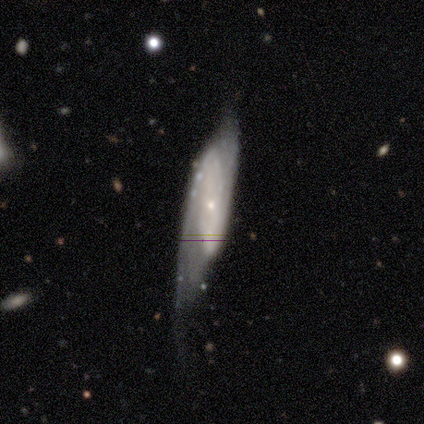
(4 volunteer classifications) Smooth or featured: featured or disk — 100%
Edge-on disk: no — 100%
Bar: no — 75% (weak — 25%)
Spiral arms: yes — 75% (no — 25%)
Spiral winding: medium — 67% (tight — 33%)
Spiral arm count: 2 — 67% (can't tell — 33%)
Bulge size: small — 100%
Merging: major disturbance — 75% (minor disturbance — 25%)